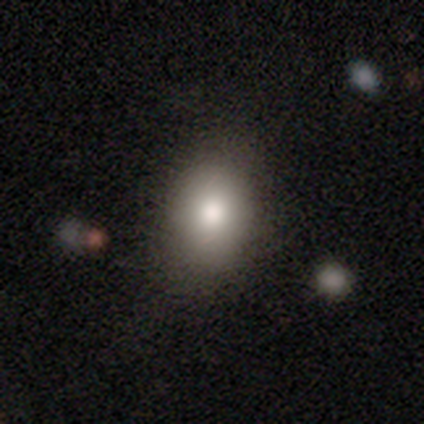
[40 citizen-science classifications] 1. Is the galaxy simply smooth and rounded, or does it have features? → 88% smooth, 8% featured or disk, 5% star or artifact.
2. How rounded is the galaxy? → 66% in between, 34% round, 0% cigar-shaped.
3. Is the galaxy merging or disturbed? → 63% none, 11% minor disturbance, 8% merger, 0% major disturbance.